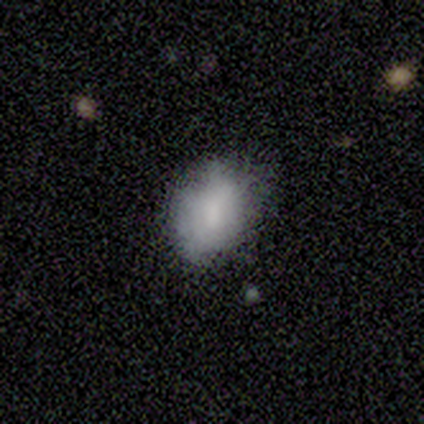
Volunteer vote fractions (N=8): Q: Smooth or featured?
A: smooth (75%); runner-up: featured or disk (25%)
Q: How rounded?
A: in between (83%); runner-up: round (17%)
Q: Merging?
A: minor disturbance (50%); runner-up: none (25%)